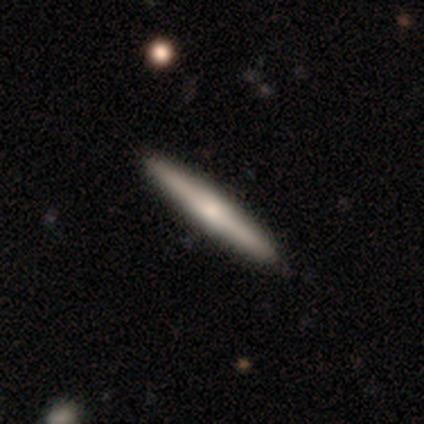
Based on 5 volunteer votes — Smooth or featured?
  - smooth: 60% *
  - featured or disk: 40%
  - star or artifact: 0%
How rounded?
  - cigar-shaped: 100% *
  - round: 0%
  - in between: 0%
Merging?
  - none: 80% *
  - minor disturbance: 20%
  - major disturbance: 0%
  - merger: 0%